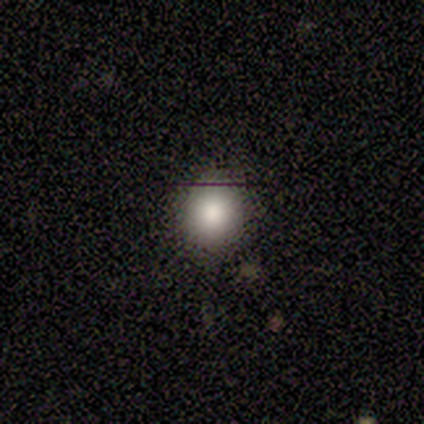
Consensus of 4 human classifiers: Smooth or featured? 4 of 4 (100%) said smooth. How rounded? 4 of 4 (100%) said round. Merging? 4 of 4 (100%) said none.